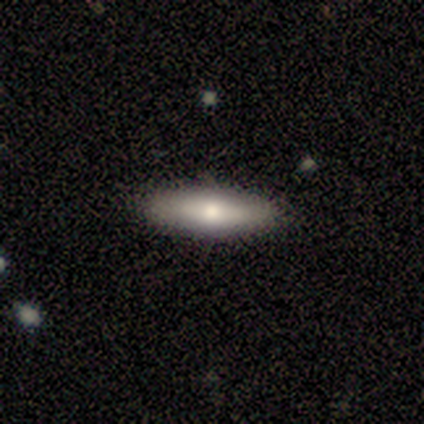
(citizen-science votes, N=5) Overall: smooth (60%; featured or disk 20%). How rounded: cigar-shaped (100%). Merging: none (100%).